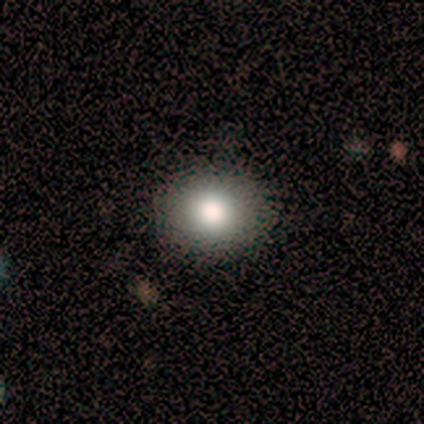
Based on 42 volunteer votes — smooth_or_featured: smooth (p=0.76) [alt: star or artifact p=0.14]
how_rounded: round (p=0.75) [alt: in between p=0.25]
merging: none (p=0.92) [alt: major disturbance p=0.06]